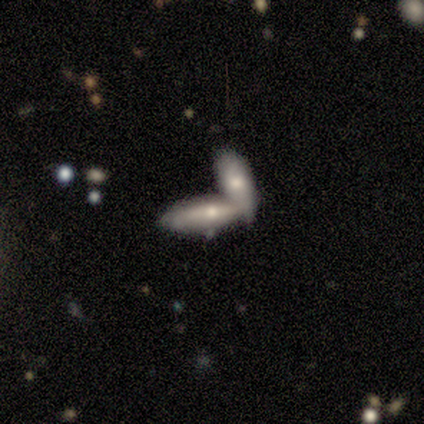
Q: Smooth or featured?
A: smooth (62%); runner-up: featured or disk (38%)
Q: How rounded?
A: in between (60%); runner-up: cigar-shaped (40%)
Q: Merging?
A: merger (62%); runner-up: none (25%)